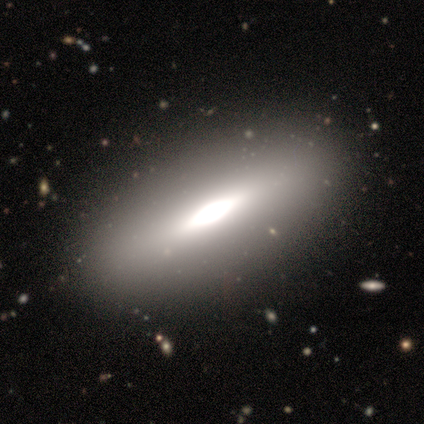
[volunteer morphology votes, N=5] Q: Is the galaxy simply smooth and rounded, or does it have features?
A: featured or disk — 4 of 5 (80%).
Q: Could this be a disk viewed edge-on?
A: yes — 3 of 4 (75%).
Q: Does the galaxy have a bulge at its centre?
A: boxy — 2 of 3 (67%).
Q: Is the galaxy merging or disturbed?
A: none — 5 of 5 (100%).